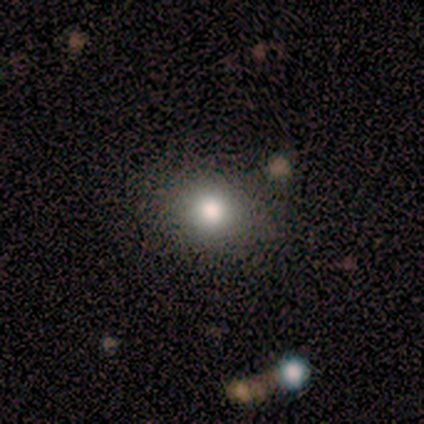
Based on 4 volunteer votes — Volunteers were most divided on "edge-on disk" (2-way tie): yes: 50%, no: 50%. More confident: edge-on bulge — rounded (100%); merging — none (100%); smooth or featured — featured or disk (50%).